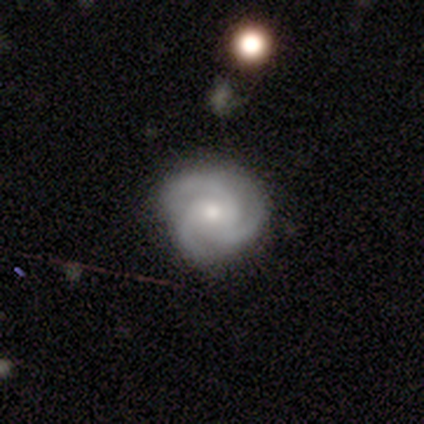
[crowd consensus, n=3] Smooth or featured? 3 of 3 (100%) said featured or disk. Edge-on disk? 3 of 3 (100%) said no. Bar? 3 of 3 (100%) said no. Spiral arms? 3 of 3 (100%) said yes. Spiral winding? 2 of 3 (67%) said tight. Spiral arm count? 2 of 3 (67%) said 3. Bulge size? 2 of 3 (67%) said small. Merging? 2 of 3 (67%) said none.